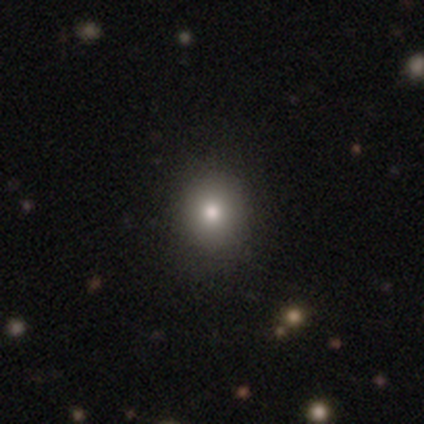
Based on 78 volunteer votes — This is clearly a smooth galaxy (83%). How rounded: likely round (72%). Merging: marginally none (44%).